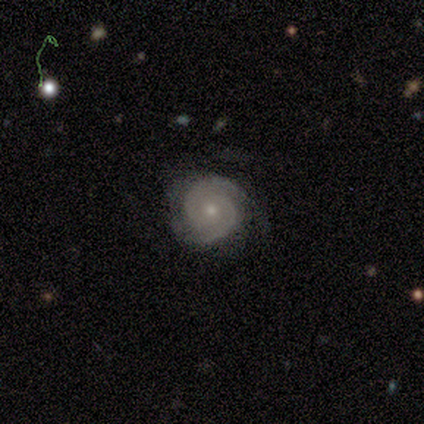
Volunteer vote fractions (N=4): Smooth or featured? 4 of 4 (100%) said featured or disk. Edge-on disk? 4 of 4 (100%) said no. Bar? 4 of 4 (100%) said no. Spiral arms? 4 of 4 (100%) said yes. Spiral winding? 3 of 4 (75%) said tight. Spiral arm count? 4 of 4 (100%) said 2. Bulge size? 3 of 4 (75%) said small. Merging? 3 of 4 (75%) said none.